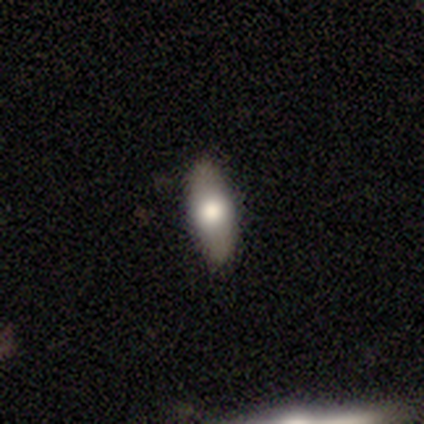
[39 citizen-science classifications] Volunteers were most divided on "how rounded": in between: 74%, cigar-shaped: 23%, round: 3%. More confident: merging — none (85%); smooth or featured — smooth (79%).